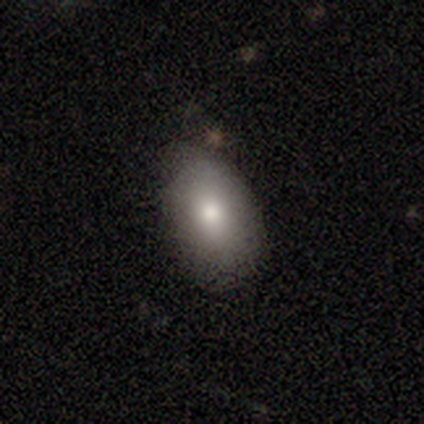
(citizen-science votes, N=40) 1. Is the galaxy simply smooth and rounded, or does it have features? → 65% smooth, 18% featured or disk, 18% star or artifact.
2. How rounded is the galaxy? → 81% in between, 15% round, 4% cigar-shaped.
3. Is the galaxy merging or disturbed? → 70% none, 24% minor disturbance, 3% major disturbance, 3% merger.